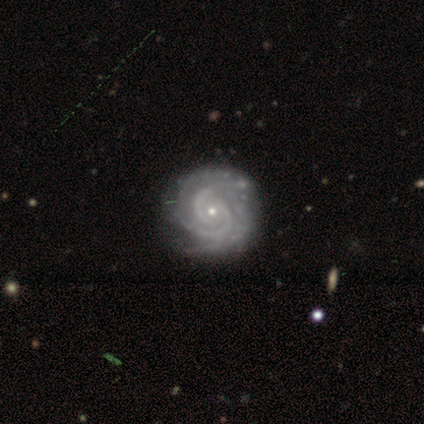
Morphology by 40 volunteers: A featured or disk galaxy (95%) with no bar (76%), 2 (43%) tight (73%) spiral arms (100%) and a small central bulge (86%). Merging: none (52%).